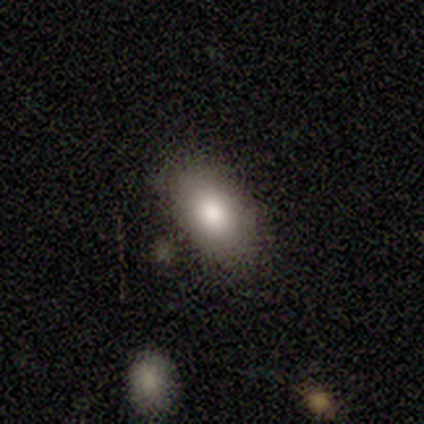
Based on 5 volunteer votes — Smooth or featured?
  - smooth: 40% * (tied)
  - featured or disk: 40% * (tied)
  - star or artifact: 20%
How rounded?
  - in between: 100% *
  - round: 0%
  - cigar-shaped: 0%
Merging?
  - none: 50% *
  - minor disturbance: 25%
  - merger: 25%
  - major disturbance: 0%